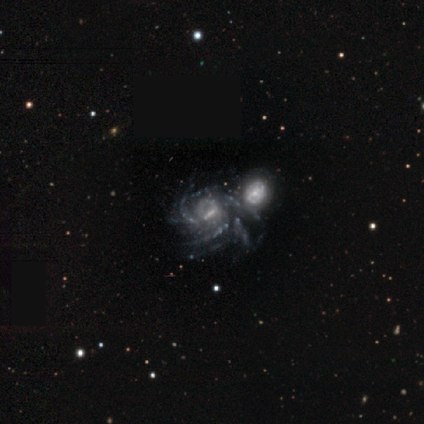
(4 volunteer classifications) Q: Smooth or featured?
A: featured or disk (100%)
Q: Edge-on disk?
A: no (100%)
Q: Bar?
A: weak (50%); runner-up: strong (25%)
Q: Spiral arms?
A: yes (100%)
Q: Spiral winding?
A: tight (50%); tied with: medium (50%)
Q: Spiral arm count?
A: 3 (50%); tied with: more than 4 (50%)
Q: Bulge size?
A: none (50%); runner-up: moderate (25%)
Q: Merging?
A: none (50%); runner-up: minor disturbance (25%)